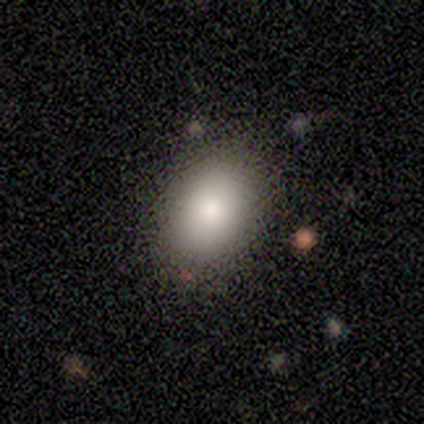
This appears to be a smooth galaxy with no disk features (75%) that is in between round and cigar-shaped (100%). Merging: none (75%).